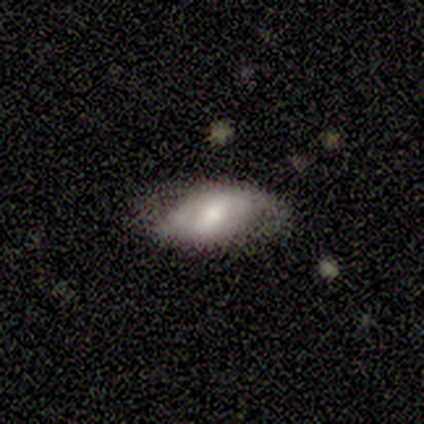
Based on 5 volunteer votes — Volunteers were most divided on "smooth or featured" (2-way tie): smooth: 40%, featured or disk: 40%, star or artifact: 20%. More confident: how rounded — in between (100%); merging — none (75%).